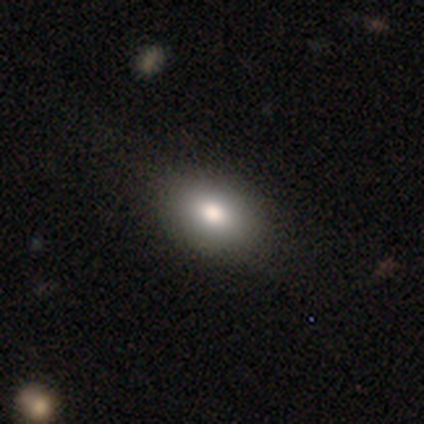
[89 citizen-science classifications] smooth 81%, featured or disk 11%, star or artifact 8%. Down the decision tree: how rounded — in between (85%); merging — none (85%).